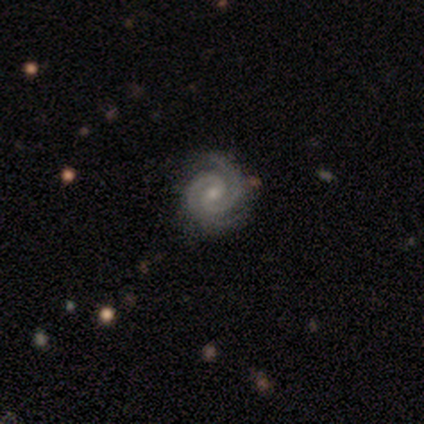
smooth-or-featured: featured or disk: 73% | smooth: 18% | star or artifact: 9%
  disk-edge-on: no: 100% | yes: 0%
    bar: weak: 62% | no: 38% | strong: 0%
    has-spiral-arms: yes: 100% | no: 0%
      spiral-winding: tight: 88% | medium: 12% | loose: 0%
      spiral-arm-count: 2: 75% | 3: 25% | 1: 0% | 4: 0% | more than 4: 0% | can't tell: 0%
    bulge-size: moderate: 50% (tied) | small: 50% (tied) | dominant: 0% | large: 0% | none: 0%
  merging: none: 60% | minor disturbance: 40% | major disturbance: 0% | merger: 0%